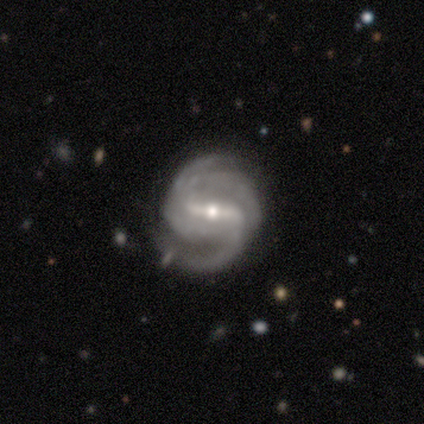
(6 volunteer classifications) This appears to be a featured or disk galaxy (100%) with a strong bar (100%), 2 (67%) medium (83%) spiral arms (100%) and a moderate central bulge (67%). Merging: minor disturbance (50%).